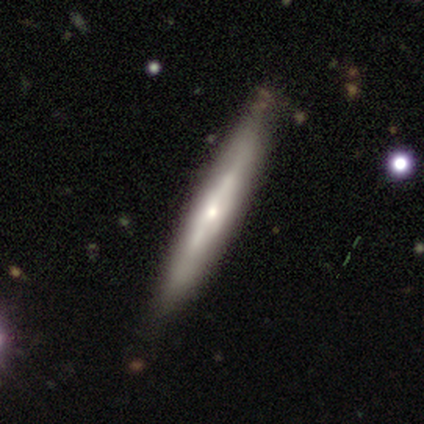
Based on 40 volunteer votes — Smooth or featured: featured or disk — 68% (smooth — 30%)
Edge-on disk: yes — 93% (no — 7%)
Edge-on bulge: rounded — 68% (boxy — 16%)
Merging: none — 46% (minor disturbance — 5%)